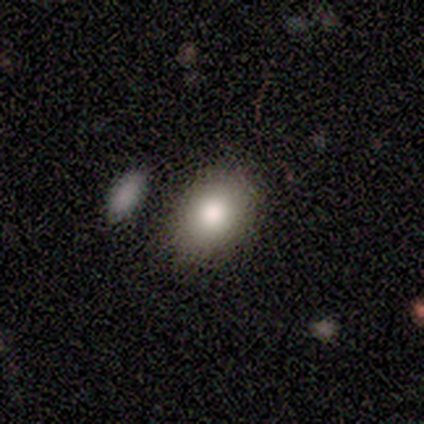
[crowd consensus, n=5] A smooth galaxy with no disk features (100%) that is in between round and cigar-shaped (60%).

Vote fractions:
- Smooth or featured? smooth: 100% / featured or disk: 0% / star or artifact: 0%
- How rounded? in between: 60% / round: 40% / cigar-shaped: 0%
- Merging? none: 80% / major disturbance: 20% / minor disturbance: 0% / merger: 0%